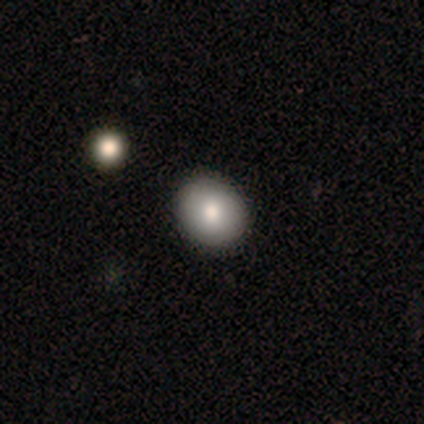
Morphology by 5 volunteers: Smooth or featured: smooth — 80% (featured or disk — 20%)
How rounded: round — 50% (tied with in between — 50%)
Merging: none — 60% (minor disturbance — 20%)